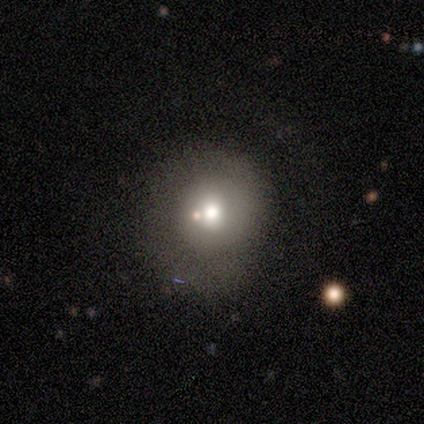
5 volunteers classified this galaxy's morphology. smooth_or_featured: featured or disk (p=0.60) [alt: smooth p=0.20]
disk_edge_on: no (p=1.00)
bar: no (p=1.00)
has_spiral_arms: no (p=0.67) [alt: yes p=0.33]
bulge_size: moderate (p=0.67) [alt: large p=0.33]
merging: none (p=0.50) [tied with: minor disturbance p=0.50]